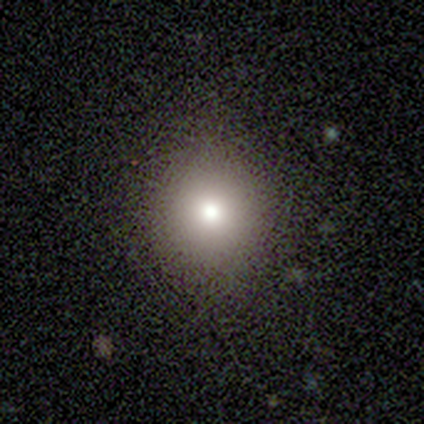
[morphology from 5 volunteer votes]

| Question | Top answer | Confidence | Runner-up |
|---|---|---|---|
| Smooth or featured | smooth | 100% | — |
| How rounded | round | 100% | — |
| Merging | none | 80% | major disturbance (20%) |